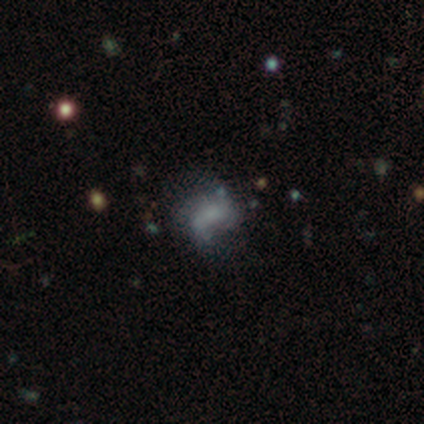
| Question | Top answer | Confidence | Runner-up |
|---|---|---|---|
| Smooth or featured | smooth | 60% | featured or disk (20%) |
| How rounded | in between | 100% | — |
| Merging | none | 50% | minor disturbance (25%) |